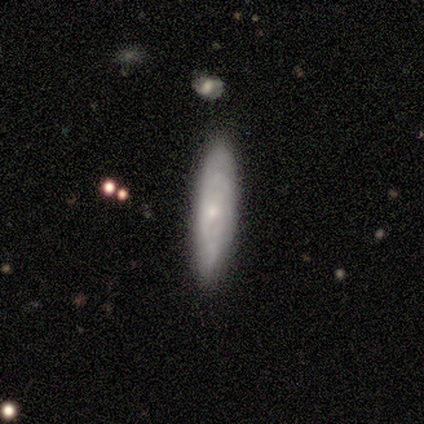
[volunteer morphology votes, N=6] type=smooth (83%); roundness=cigar-shaped (60%); merging=none (80%).